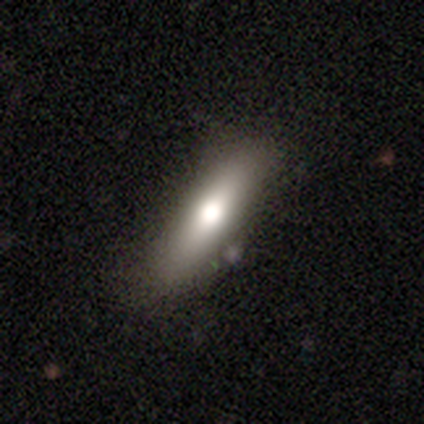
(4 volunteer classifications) This is possibly a featured or disk galaxy (50%). It is clearly viewed edge-on (100%). Edge-on bulge: possibly boxy (50%, tied with rounded). Merging: likely none (67%).